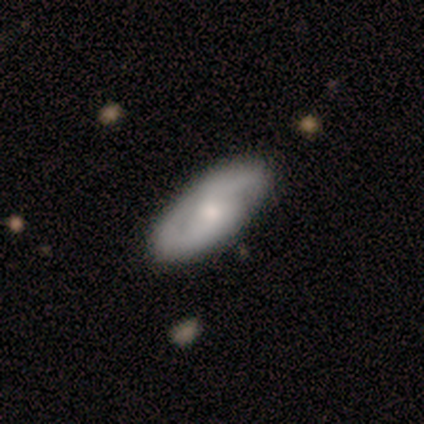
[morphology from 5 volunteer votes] Smooth or featured: featured or disk — 80% (smooth — 20%)
Edge-on disk: no — 75% (yes — 25%)
Bar: no — 67% (weak — 33%)
Spiral arms: yes — 100%
Spiral winding: medium — 67% (loose — 33%)
Spiral arm count: 2 — 100%
Bulge size: small — 67% (moderate — 33%)
Merging: none — 100%